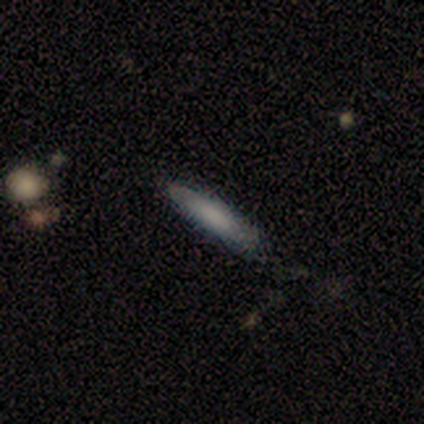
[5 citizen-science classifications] A featured or disk galaxy (60%) with no bar (100%), no spiral arms (100%) and a moderate central bulge (50%, tied with none).

Vote fractions:
- Smooth or featured? featured or disk: 60% / smooth: 40% / star or artifact: 0%
- Edge-on disk? no: 67% / yes: 33%
- Bar? no: 100% / strong: 0% / weak: 0%
- Spiral arms? no: 100% / yes: 0%
- Bulge size? moderate: 50% (tied) / none: 50% (tied) / dominant: 0% / large: 0% / small: 0%
- Merging? none: 60% / minor disturbance: 40% / major disturbance: 0% / merger: 0%